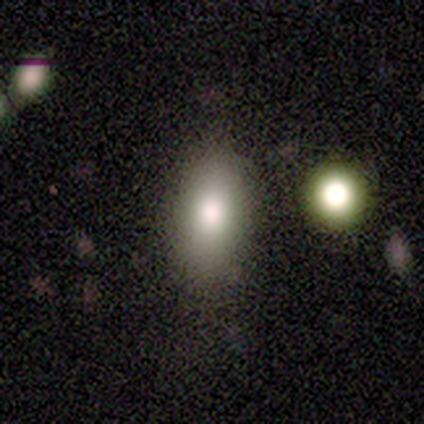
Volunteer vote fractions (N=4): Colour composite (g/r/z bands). It shows a smooth galaxy with no disk features (75%) that is in between round and cigar-shaped (67%). Merging: none (100%).